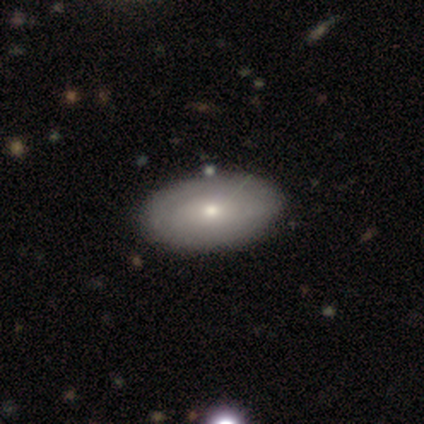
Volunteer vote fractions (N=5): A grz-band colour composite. It shows a smooth galaxy with no disk features (40%, tied with featured or disk) that is in between round and cigar-shaped (100%). Merging: none (100%).